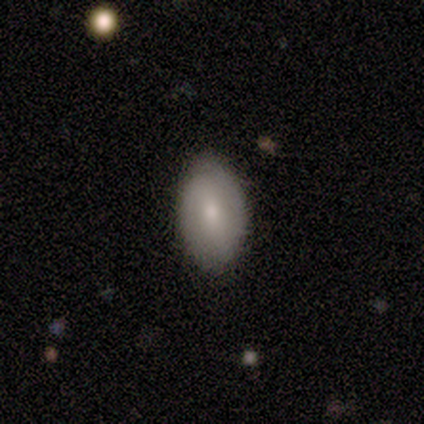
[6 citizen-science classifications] Smooth or featured: smooth — 50% (tied with featured or disk — 50%)
How rounded: in between — 100%
Merging: none — 67% (minor disturbance — 33%)